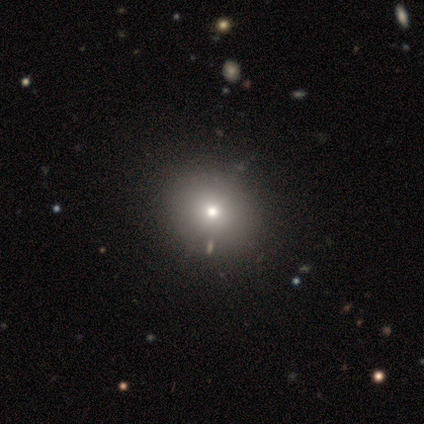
This appears to be a smooth galaxy with no disk features (60%) that is round (83%). Merging: none (66%).